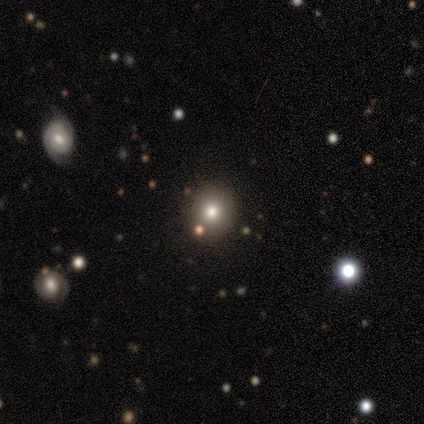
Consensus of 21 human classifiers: Morphology: type=smooth (52%); roundness=round (91%); merging=none (87%).